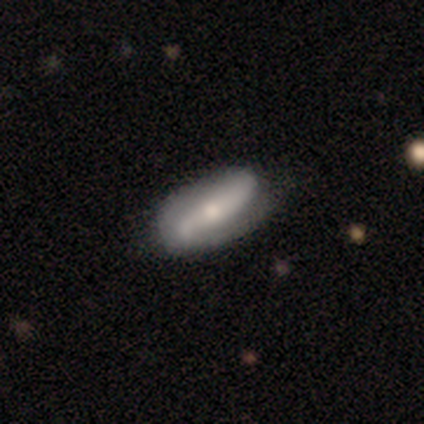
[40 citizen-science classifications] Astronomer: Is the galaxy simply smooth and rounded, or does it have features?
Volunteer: featured or disk — 65%.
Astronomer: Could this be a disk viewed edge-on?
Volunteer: no — 85%.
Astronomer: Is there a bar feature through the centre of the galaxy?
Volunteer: no — 45% (runner-up: strong, 41%).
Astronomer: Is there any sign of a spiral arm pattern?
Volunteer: yes — 82%.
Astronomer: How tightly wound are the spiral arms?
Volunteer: loose — 67%.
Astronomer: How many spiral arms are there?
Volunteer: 2 — 83%.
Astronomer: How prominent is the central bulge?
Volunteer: small — 50% (runner-up: moderate, 41%).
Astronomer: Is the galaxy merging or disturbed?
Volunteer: none — 72%.